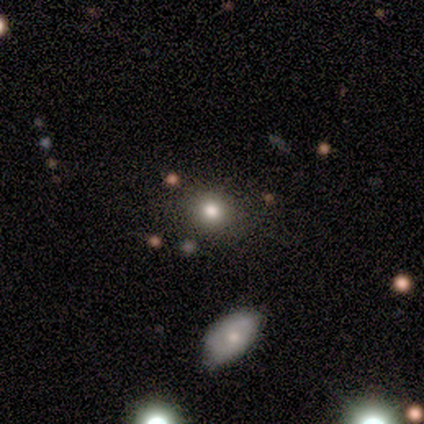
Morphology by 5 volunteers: smooth-or-featured: smooth: 80% | star or artifact: 20% | featured or disk: 0%
  how-rounded: round: 50% (tied) | in between: 50% (tied) | cigar-shaped: 0%
  merging: none: 75% | minor disturbance: 25% | major disturbance: 0% | merger: 0%